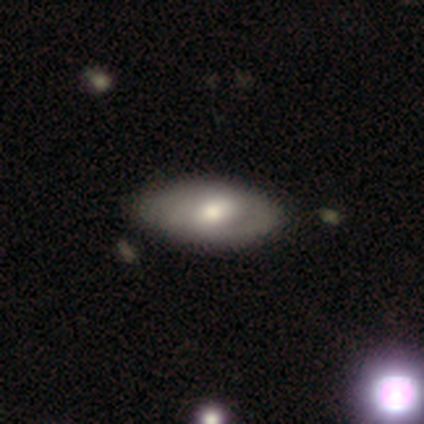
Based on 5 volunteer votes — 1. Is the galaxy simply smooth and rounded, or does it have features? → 60% smooth, 40% featured or disk, 0% star or artifact.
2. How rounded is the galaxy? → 100% in between, 0% round, 0% cigar-shaped.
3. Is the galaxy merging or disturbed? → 100% none, 0% minor disturbance, 0% major disturbance, 0% merger.